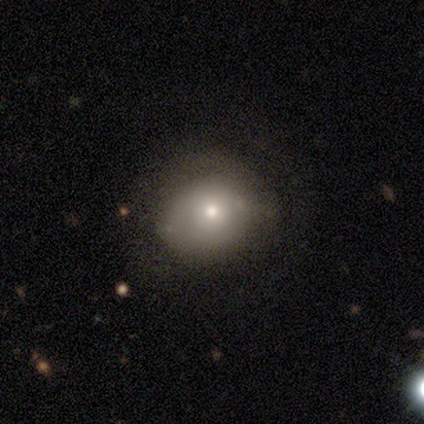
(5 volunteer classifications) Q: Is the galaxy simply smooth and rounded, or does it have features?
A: smooth — 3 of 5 (60%).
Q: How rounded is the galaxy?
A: round — 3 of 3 (100%).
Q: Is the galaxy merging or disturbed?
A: none — 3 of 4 (75%).